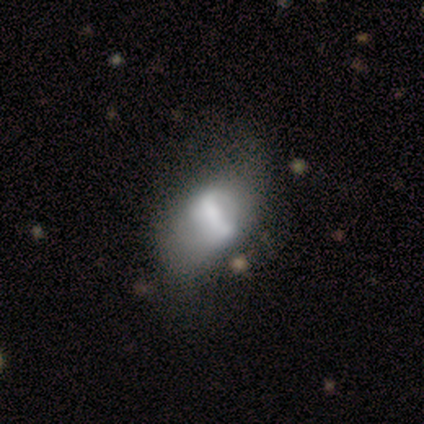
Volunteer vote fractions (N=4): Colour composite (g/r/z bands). It shows a star or artifact, not a galaxy (50%).